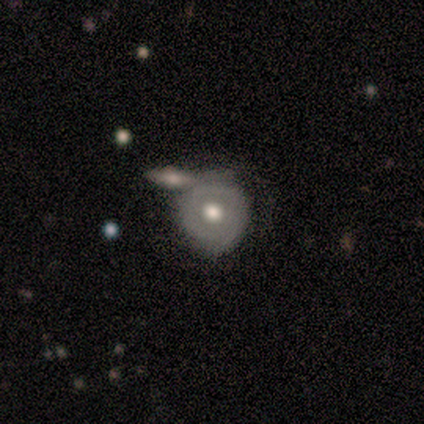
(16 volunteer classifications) Smooth or featured?
  - smooth: 62% *
  - featured or disk: 38%
  - star or artifact: 0%
How rounded?
  - round: 80% *
  - in between: 10%
  - cigar-shaped: 10%
Merging?
  - none: 44% * (tied)
  - merger: 44% * (tied)
  - minor disturbance: 12%
  - major disturbance: 0%